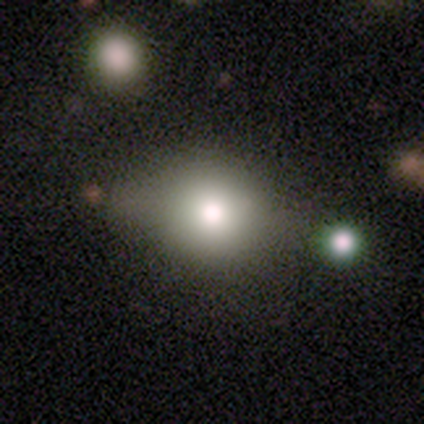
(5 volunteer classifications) smooth-or-featured: smooth: 60% | star or artifact: 40% | featured or disk: 0%
  how-rounded: in between: 67% | round: 33% | cigar-shaped: 0%
  merging: minor disturbance: 67% | none: 33% | major disturbance: 0% | merger: 0%